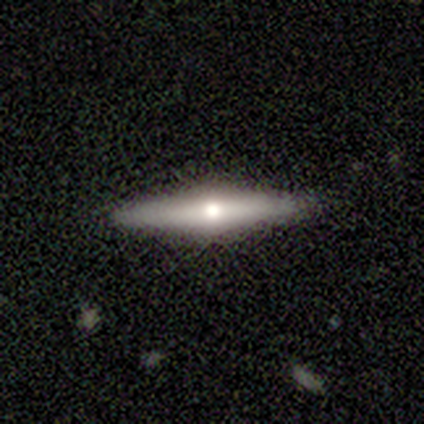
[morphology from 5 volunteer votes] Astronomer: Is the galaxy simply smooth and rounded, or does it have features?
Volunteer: smooth — 60% (runner-up: featured or disk, 40%).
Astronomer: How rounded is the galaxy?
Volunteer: cigar-shaped — 67%.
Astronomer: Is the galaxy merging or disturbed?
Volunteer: none — 80%.